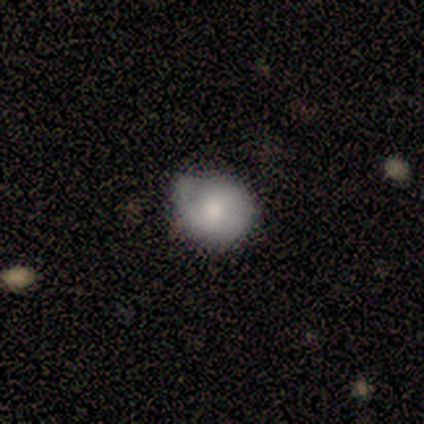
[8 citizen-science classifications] Volunteers were most divided on "smooth or featured": smooth: 50%, featured or disk: 38%, star or artifact: 12%. More confident: how rounded — round (100%); merging — minor disturbance (57%).